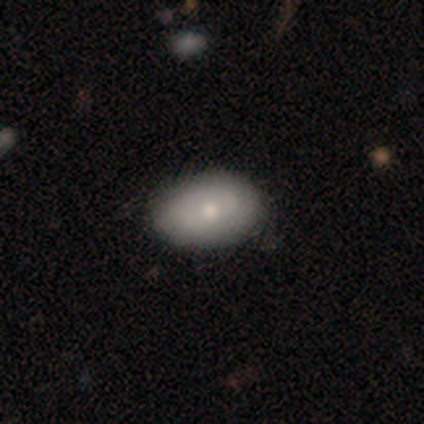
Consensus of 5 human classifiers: This appears to be a smooth galaxy with no disk features (80%) that is in between round and cigar-shaped (100%). Merging: none (100%).